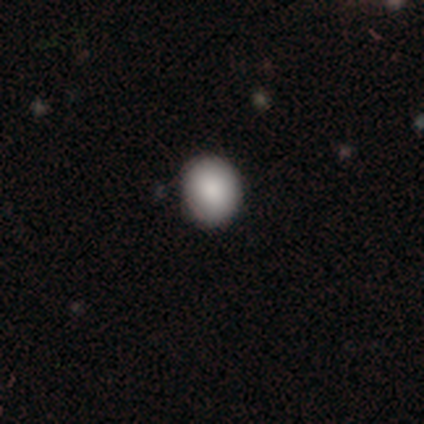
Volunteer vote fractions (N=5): Smooth or featured?
  - smooth: 100% *
  - featured or disk: 0%
  - star or artifact: 0%
How rounded?
  - round: 100% *
  - in between: 0%
  - cigar-shaped: 0%
Merging?
  - none: 80% *
  - minor disturbance: 20%
  - major disturbance: 0%
  - merger: 0%